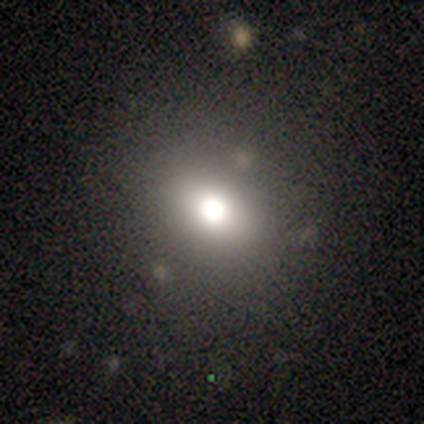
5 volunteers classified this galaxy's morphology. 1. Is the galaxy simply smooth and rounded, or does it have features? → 80% smooth, 20% star or artifact, 0% featured or disk.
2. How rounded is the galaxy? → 50% round (tied), 50% in between (tied), 0% cigar-shaped.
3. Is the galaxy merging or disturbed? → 100% none, 0% minor disturbance, 0% major disturbance, 0% merger.